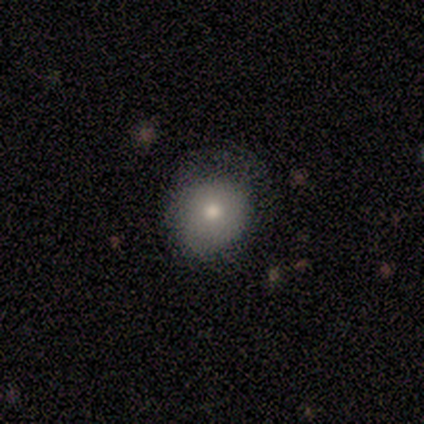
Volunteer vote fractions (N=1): smooth 100%, featured or disk 0%, star or artifact 0%. Down the decision tree: how rounded — round (100%); merging — minor disturbance (100%).